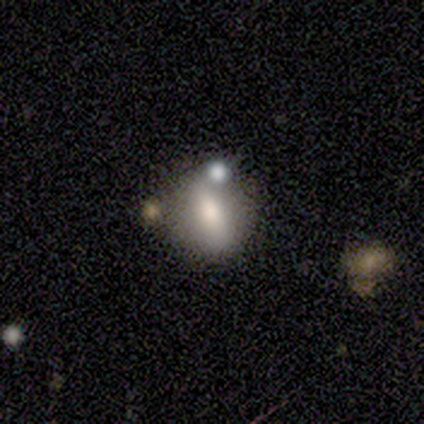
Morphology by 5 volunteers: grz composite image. It shows a smooth galaxy with no disk features (60%) that is in between round and cigar-shaped (67%). Merging: none (60%).